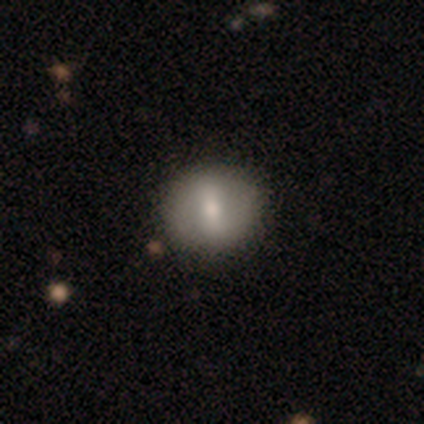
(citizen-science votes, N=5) A featured or disk galaxy (60%) with a strong bar (67%), no spiral arms (67%) and a moderate central bulge (67%).

Vote fractions:
- Smooth or featured? featured or disk: 60% / smooth: 20% / star or artifact: 20%
- Edge-on disk? no: 100% / yes: 0%
- Bar? strong: 67% / weak: 33% / no: 0%
- Spiral arms? no: 67% / yes: 33%
- Bulge size? moderate: 67% / large: 33% / dominant: 0% / small: 0% / none: 0%
- Merging? none: 75% / major disturbance: 25% / minor disturbance: 0% / merger: 0%